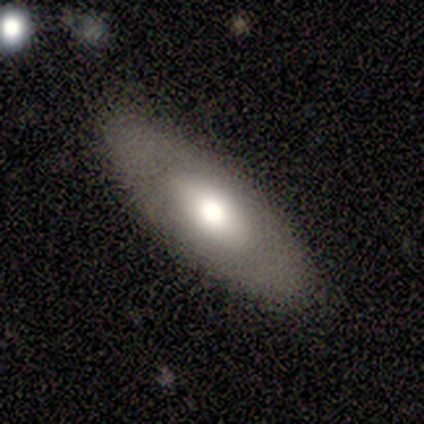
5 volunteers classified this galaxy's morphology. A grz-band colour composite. It shows a smooth galaxy with no disk features (60%) that is in between round and cigar-shaped (100%). Merging: none (100%).